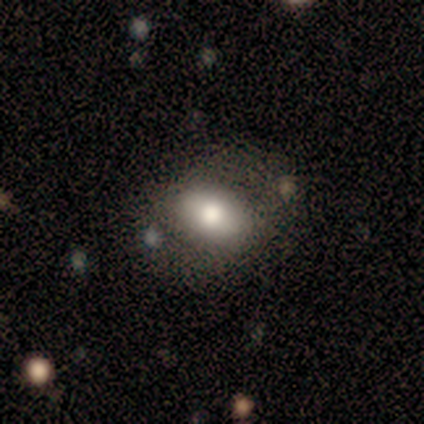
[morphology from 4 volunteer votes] type=smooth (50%, tied with featured or disk); roundness=round (100%); merging=none (50%, tied with minor disturbance).